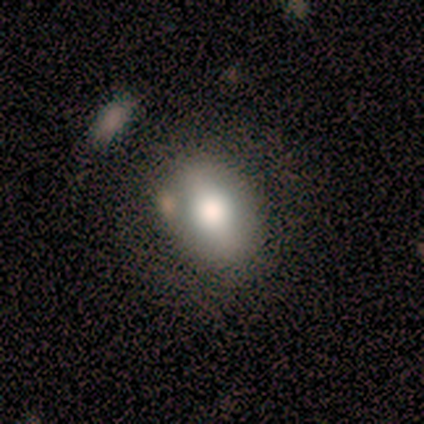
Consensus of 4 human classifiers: Smooth or featured: smooth — 50% (tied with featured or disk — 50%)
How rounded: round — 50% (tied with in between — 50%)
Merging: none — 50% (tied with minor disturbance — 50%)